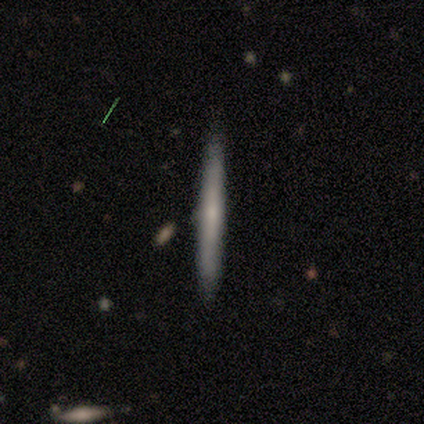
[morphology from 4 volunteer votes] Smooth or featured: smooth — 50% (tied with featured or disk — 50%)
How rounded: cigar-shaped — 100%
Merging: none — 100%